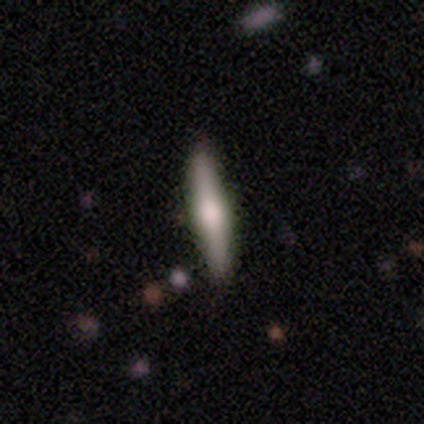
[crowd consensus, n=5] smooth 60%, featured or disk 40%, star or artifact 0%. Down the decision tree: how rounded — in between (67%); merging — none (100%).